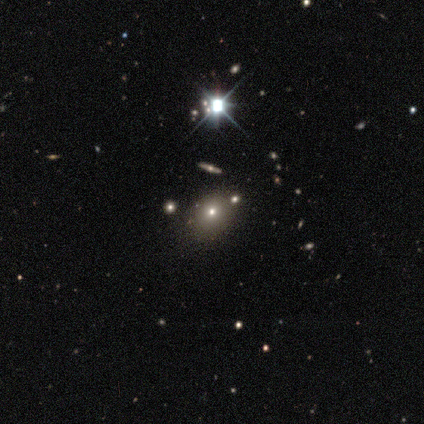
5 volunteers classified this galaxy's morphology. smooth_or_featured: featured or disk (p=0.60) [alt: smooth p=0.40]
disk_edge_on: yes (p=0.67) [alt: no p=0.33]
edge_on_bulge: none (p=0.50) [tied with: rounded p=0.50]
merging: none (p=1.00)